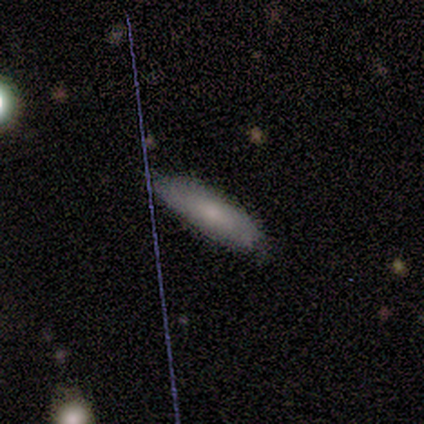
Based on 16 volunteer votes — smooth_or_featured: smooth (p=0.69) [alt: featured or disk p=0.25]
how_rounded: in between (p=0.55) [alt: cigar-shaped p=0.45]
merging: none (p=0.73) [alt: minor disturbance p=0.27]